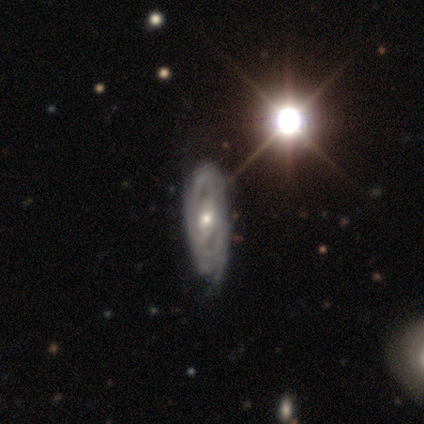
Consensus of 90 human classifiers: Smooth or featured: featured or disk — 84% (smooth — 10%)
Edge-on disk: no — 87% (yes — 13%)
Bar: weak — 44% (no — 38%)
Spiral arms: yes — 85% (no — 15%)
Spiral winding: tight — 77% (medium — 21%)
Spiral arm count: 2 — 46% (can't tell — 41%)
Bulge size: moderate — 52% (small — 42%)
Merging: none — 68% (minor disturbance — 24%)